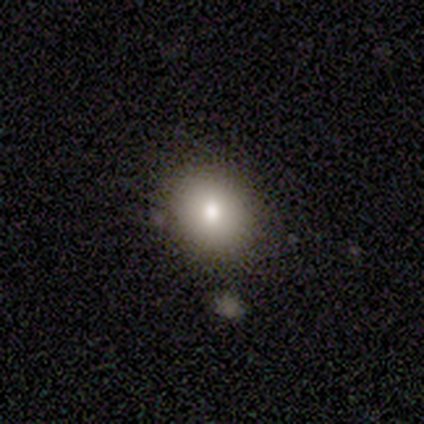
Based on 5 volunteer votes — This is likely a smooth galaxy (60%). How rounded: likely round (67%). Merging: clearly none (100%).